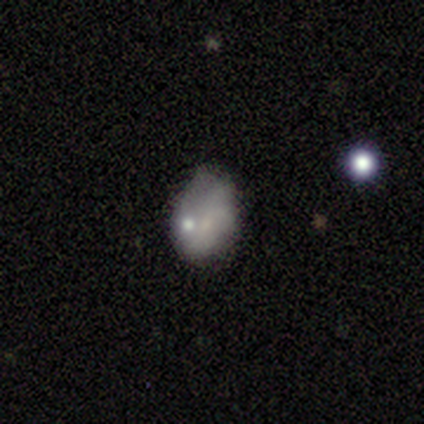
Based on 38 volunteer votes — Volunteers were most divided on "smooth or featured": smooth: 47%, featured or disk: 45%, star or artifact: 8%. Remaining: how rounded — in between (83%); merging — none (43%).